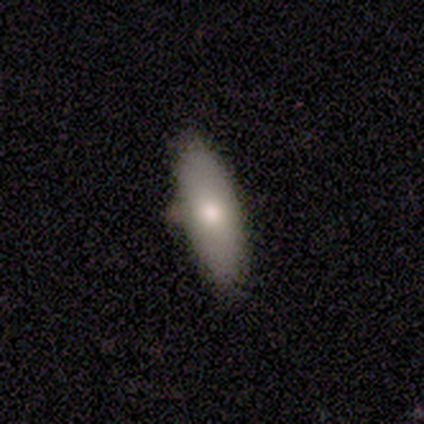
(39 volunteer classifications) Smooth or featured?
  - smooth: 67% *
  - featured or disk: 26%
  - star or artifact: 8%
How rounded?
  - in between: 73% *
  - cigar-shaped: 27%
  - round: 0%
Merging?
  - none: 78% *
  - minor disturbance: 14%
  - merger: 6%
  - major disturbance: 3%